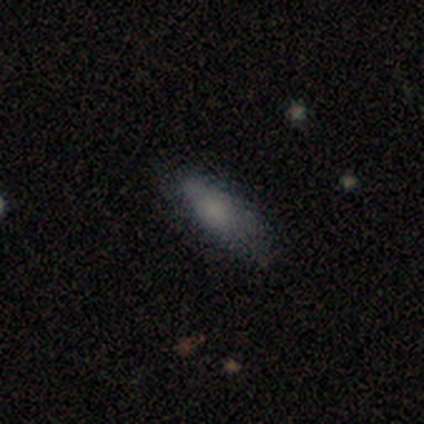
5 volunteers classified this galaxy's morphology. smooth-or-featured: smooth: 80% | featured or disk: 20% | star or artifact: 0%
  how-rounded: in between: 50% (tied) | cigar-shaped: 50% (tied) | round: 0%
  merging: none: 60% | minor disturbance: 40% | major disturbance: 0% | merger: 0%